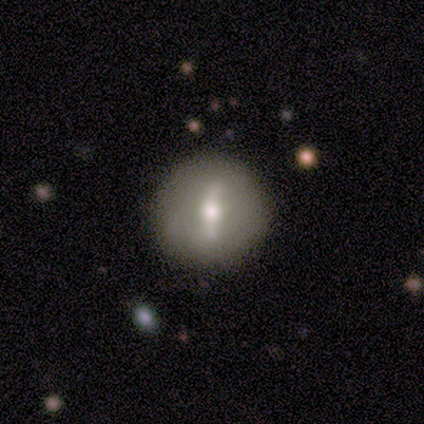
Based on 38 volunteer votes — smooth-or-featured: featured or disk: 63% | smooth: 32% | star or artifact: 5%
  disk-edge-on: no: 83% | yes: 17%
    bar: strong: 70% | weak: 20% | no: 10%
    has-spiral-arms: no: 80% | yes: 20%
    bulge-size: moderate: 75% | small: 15% | dominant: 5% | large: 5% | none: 0%
  merging: none: 86% | minor disturbance: 8% | major disturbance: 6% | merger: 0%